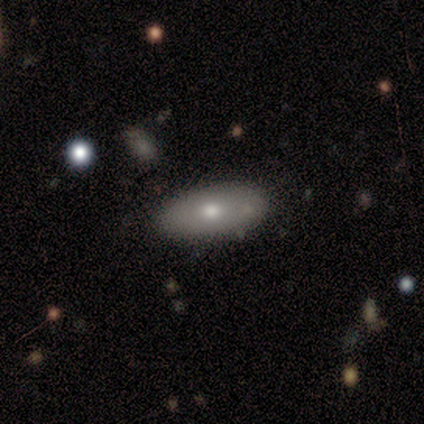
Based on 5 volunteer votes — smooth-or-featured: smooth: 100% | featured or disk: 0% | star or artifact: 0%
  how-rounded: in between: 100% | round: 0% | cigar-shaped: 0%
  merging: none: 100% | minor disturbance: 0% | major disturbance: 0% | merger: 0%